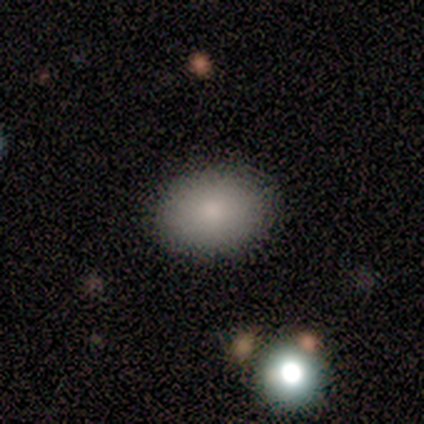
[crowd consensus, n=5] Smooth or featured?
  - smooth: 100% *
  - featured or disk: 0%
  - star or artifact: 0%
How rounded?
  - in between: 100% *
  - round: 0%
  - cigar-shaped: 0%
Merging?
  - none: 100% *
  - minor disturbance: 0%
  - major disturbance: 0%
  - merger: 0%